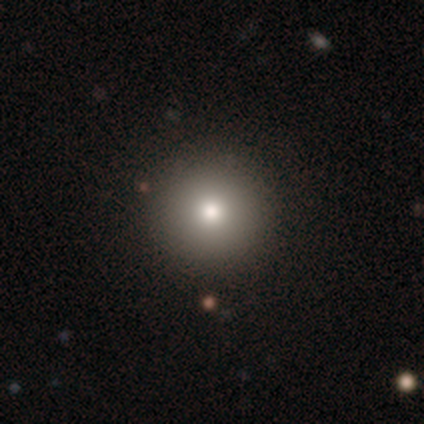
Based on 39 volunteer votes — Smooth or featured?
  - smooth: 82% *
  - star or artifact: 15%
  - featured or disk: 3%
How rounded?
  - round: 100% *
  - in between: 0%
  - cigar-shaped: 0%
Merging?
  - none: 97% *
  - minor disturbance: 3%
  - major disturbance: 0%
  - merger: 0%